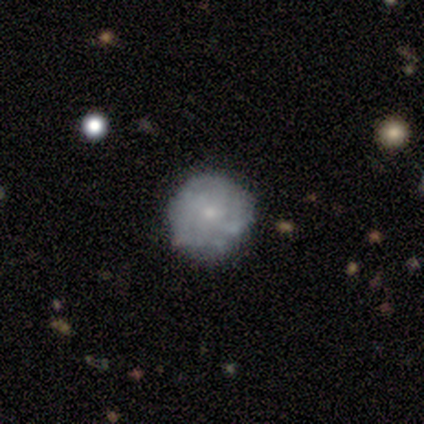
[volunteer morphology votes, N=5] Smooth or featured?
  - featured or disk: 60% *
  - smooth: 20%
  - star or artifact: 20%
Edge-on disk?
  - no: 100% *
  - yes: 0%
Bar?
  - no: 67% *
  - weak: 33%
  - strong: 0%
Spiral arms?
  - yes: 67% *
  - no: 33%
Spiral winding?
  - tight: 50% * (tied)
  - medium: 50% * (tied)
  - loose: 0%
Spiral arm count?
  - can't tell: 100% *
  - 1: 0%
  - 2: 0%
  - 3: 0%
  - 4: 0%
  - more than 4: 0%
Bulge size?
  - small: 67% *
  - moderate: 33%
  - dominant: 0%
  - large: 0%
  - none: 0%
Merging?
  - none: 100% *
  - minor disturbance: 0%
  - major disturbance: 0%
  - merger: 0%